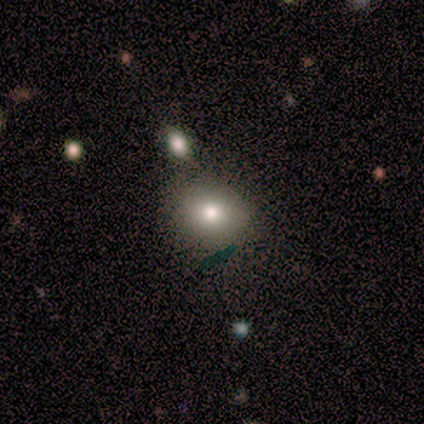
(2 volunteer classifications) Smooth or featured: smooth — 100%
How rounded: round — 50% (tied with in between — 50%)
Merging: none — 100%